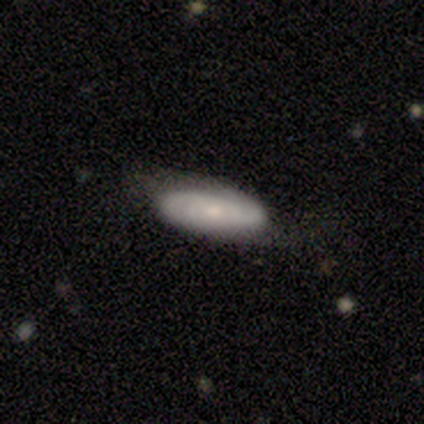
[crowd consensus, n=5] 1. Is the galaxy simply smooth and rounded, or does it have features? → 60% featured or disk, 40% smooth, 0% star or artifact.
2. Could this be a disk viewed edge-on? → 67% no, 33% yes.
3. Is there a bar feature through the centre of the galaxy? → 100% no, 0% strong, 0% weak.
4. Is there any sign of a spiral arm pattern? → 100% yes, 0% no.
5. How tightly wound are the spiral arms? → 50% tight (tied), 50% medium (tied), 0% loose.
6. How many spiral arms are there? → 100% 2, 0% 1, 0% 3, 0% 4, 0% more than 4, 0% can't tell.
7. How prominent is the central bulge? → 100% small, 0% dominant, 0% large, 0% moderate, 0% none.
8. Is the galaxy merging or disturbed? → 60% none, 20% minor disturbance, 20% major disturbance, 0% merger.